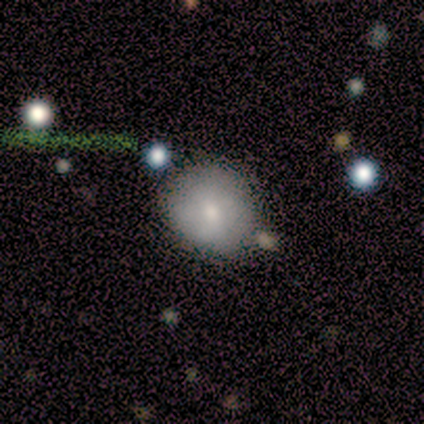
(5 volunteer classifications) Overall: smooth (100%). How rounded: round (80%). Merging: none (60%; minor disturbance 40%).